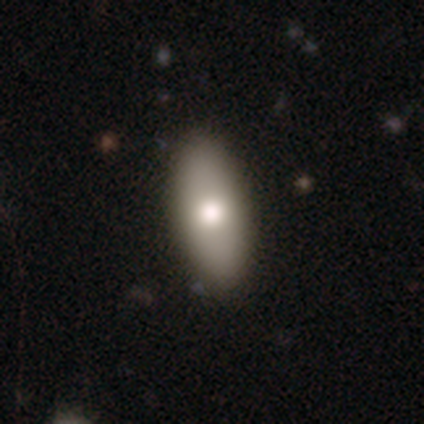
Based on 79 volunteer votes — smooth-or-featured: smooth: 85% | featured or disk: 11% | star or artifact: 4%
  how-rounded: in between: 94% | cigar-shaped: 4% | round: 1%
  merging: none: 41% | minor disturbance: 8% | merger: 4% | major disturbance: 1%